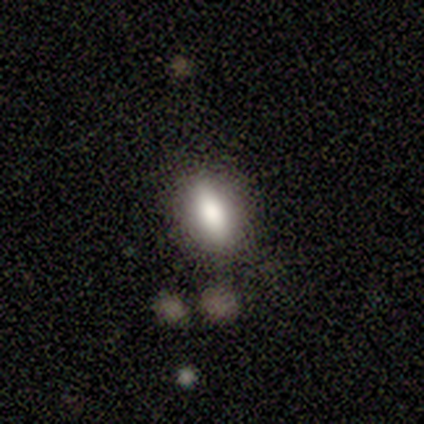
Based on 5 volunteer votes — This appears to be a smooth galaxy with no disk features (80%) that is in between round and cigar-shaped (100%). Merging: none (100%).